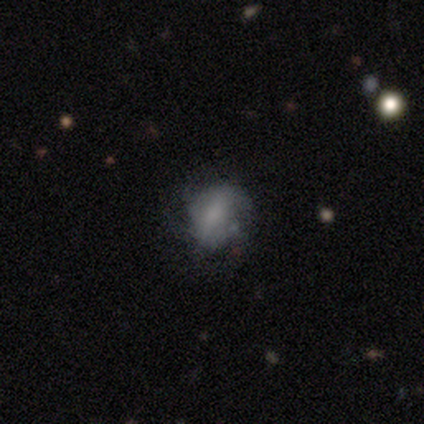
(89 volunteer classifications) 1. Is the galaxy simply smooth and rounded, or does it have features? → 53% smooth, 34% featured or disk, 13% star or artifact.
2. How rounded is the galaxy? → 53% in between, 40% round, 6% cigar-shaped.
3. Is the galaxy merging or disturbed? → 52% none, 38% minor disturbance, 10% major disturbance, 0% merger.